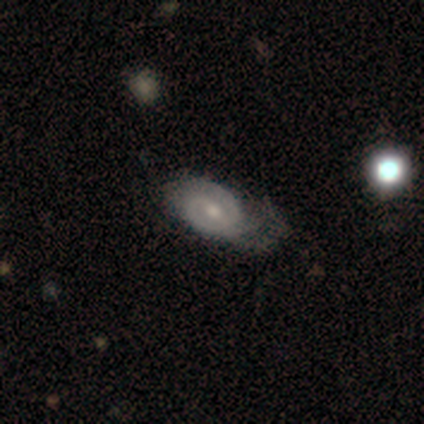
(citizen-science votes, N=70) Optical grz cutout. It shows a featured or disk galaxy (76%) with a weak bar (56%), 2 (69%) tight (52%) spiral arms (92%) and a moderate central bulge (60%). Merging: major disturbance (35%).